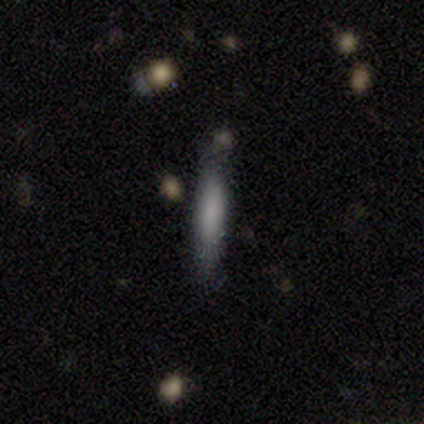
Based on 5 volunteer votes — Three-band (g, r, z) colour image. It shows a smooth galaxy with no disk features (60%) that is cigar-shaped (100%). Merging: none (80%).